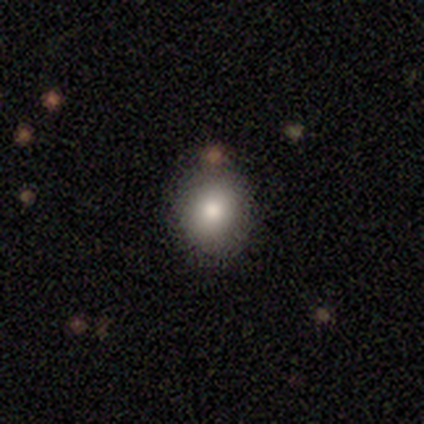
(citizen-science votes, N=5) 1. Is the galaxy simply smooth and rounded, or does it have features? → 100% smooth, 0% featured or disk, 0% star or artifact.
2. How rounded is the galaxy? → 60% round, 40% in between, 0% cigar-shaped.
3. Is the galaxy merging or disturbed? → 60% none, 20% minor disturbance, 20% merger, 0% major disturbance.